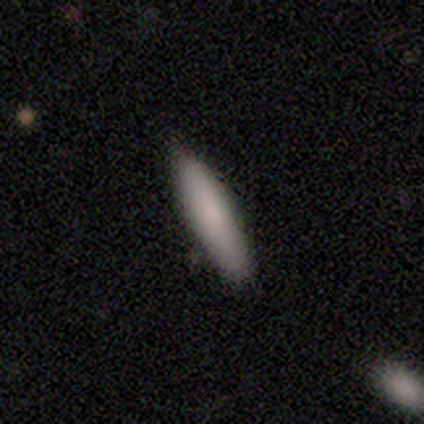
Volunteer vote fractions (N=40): A smooth galaxy with no disk features (78%) that is cigar-shaped (84%). Merging: none (77%).